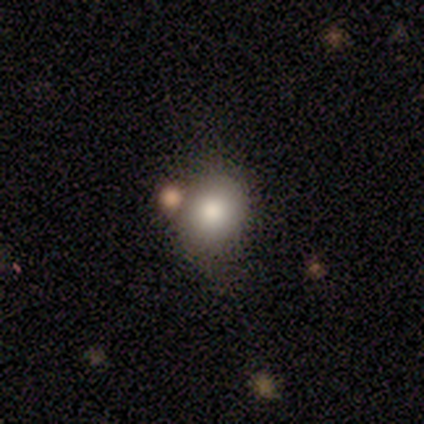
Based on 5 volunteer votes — This is clearly a smooth galaxy (80%). How rounded: likely round (75%). Merging: likely none (75%).